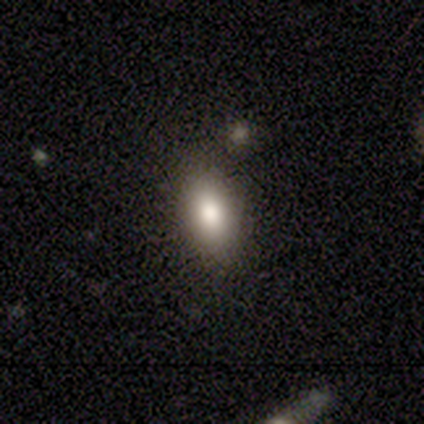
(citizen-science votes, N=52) This is clearly a smooth galaxy (85%). How rounded: clearly in between (95%). Merging: clearly none (92%).